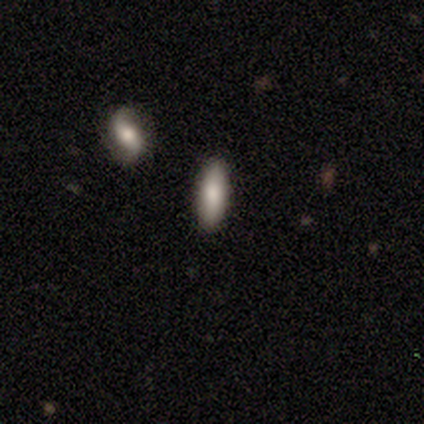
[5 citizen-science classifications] Smooth or featured? 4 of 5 (80%) said smooth. How rounded? 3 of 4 (75%) said in between. Merging? 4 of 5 (80%) said none.